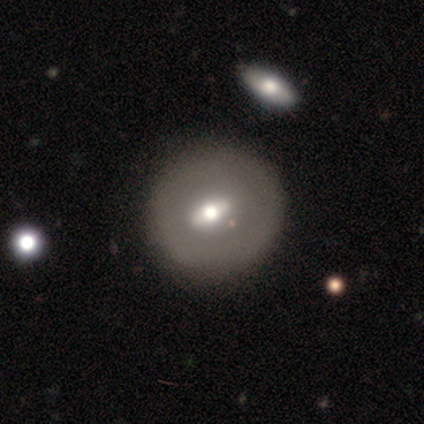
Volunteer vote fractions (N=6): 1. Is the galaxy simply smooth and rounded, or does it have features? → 67% featured or disk, 17% smooth, 17% star or artifact.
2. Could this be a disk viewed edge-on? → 100% no, 0% yes.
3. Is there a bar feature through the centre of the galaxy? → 50% weak, 25% strong, 25% no.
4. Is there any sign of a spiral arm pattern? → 100% no, 0% yes.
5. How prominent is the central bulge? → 50% moderate, 25% large, 25% small, 0% dominant, 0% none.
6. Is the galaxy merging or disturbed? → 80% none, 20% merger, 0% minor disturbance, 0% major disturbance.